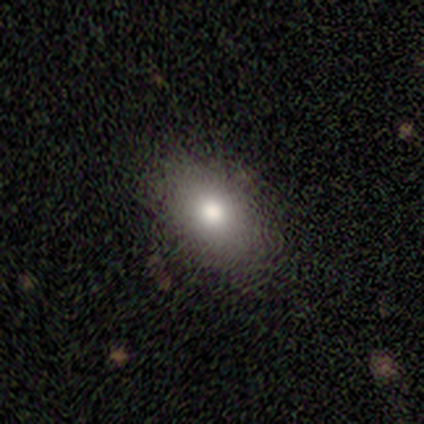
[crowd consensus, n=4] Smooth or featured?
  - smooth: 50% *
  - featured or disk: 25%
  - star or artifact: 25%
How rounded?
  - in between: 100% *
  - round: 0%
  - cigar-shaped: 0%
Merging?
  - none: 100% *
  - minor disturbance: 0%
  - major disturbance: 0%
  - merger: 0%